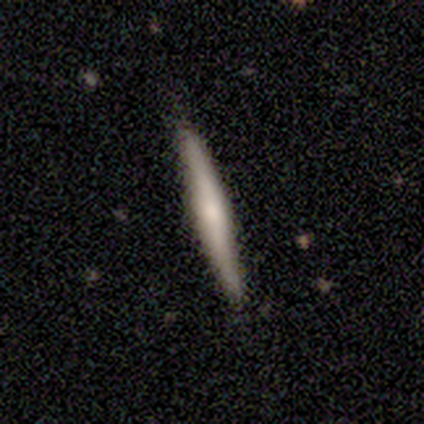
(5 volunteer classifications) Q: Smooth or featured?
A: smooth (100%)
Q: How rounded?
A: cigar-shaped (100%)
Q: Merging?
A: none (100%)